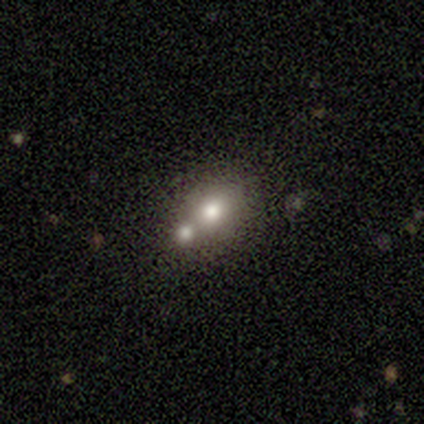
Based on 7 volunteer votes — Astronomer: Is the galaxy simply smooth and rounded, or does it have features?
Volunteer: smooth — 100%.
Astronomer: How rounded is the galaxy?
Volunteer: in between — 57%.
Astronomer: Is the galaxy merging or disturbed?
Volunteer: merger — 57%.